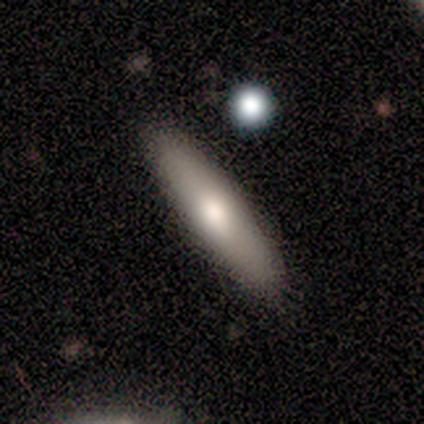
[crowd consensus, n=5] Smooth or featured? 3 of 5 (60%) said smooth. How rounded? 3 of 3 (100%) said cigar-shaped. Merging? 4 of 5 (80%) said none.